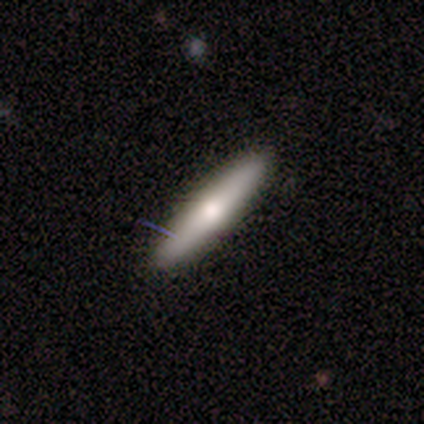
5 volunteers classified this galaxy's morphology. smooth-or-featured: featured or disk: 60% | smooth: 40% | star or artifact: 0%
  disk-edge-on: yes: 100% | no: 0%
    edge-on-bulge: rounded: 100% | boxy: 0% | none: 0%
  merging: none: 100% | minor disturbance: 0% | major disturbance: 0% | merger: 0%